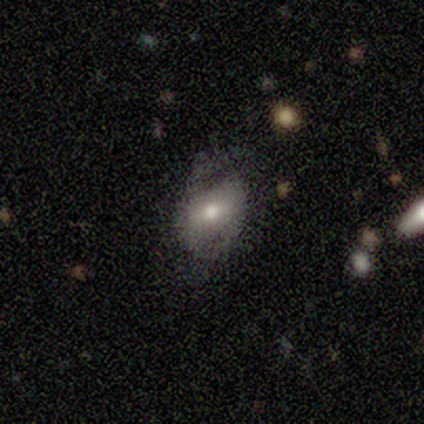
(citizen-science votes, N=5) Q: Smooth or featured?
A: featured or disk (80%); runner-up: smooth (20%)
Q: Edge-on disk?
A: no (100%)
Q: Bar?
A: no (75%); runner-up: weak (25%)
Q: Spiral arms?
A: yes (75%); runner-up: no (25%)
Q: Spiral winding?
A: medium (67%); runner-up: loose (33%)
Q: Spiral arm count?
A: 2 (67%); runner-up: 1 (33%)
Q: Bulge size?
A: moderate (75%); runner-up: small (25%)
Q: Merging?
A: none (80%); runner-up: minor disturbance (20%)